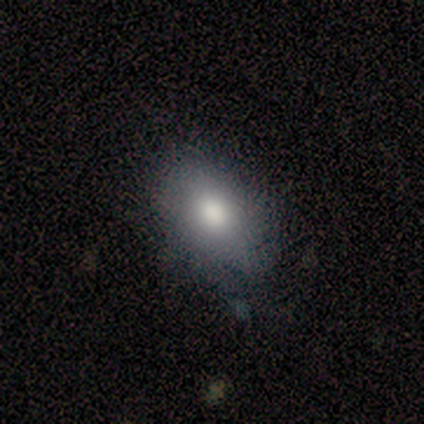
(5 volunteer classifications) Smooth or featured: smooth — 60% (featured or disk — 20%)
How rounded: in between — 67% (round — 33%)
Merging: none — 75% (minor disturbance — 25%)